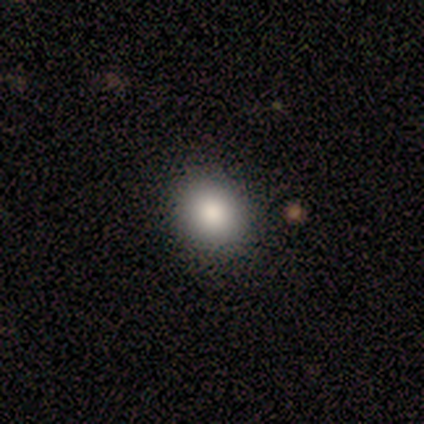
Smooth or featured? 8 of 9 (89%) said smooth. How rounded? 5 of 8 (62%) said round. Merging? 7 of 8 (88%) said none.